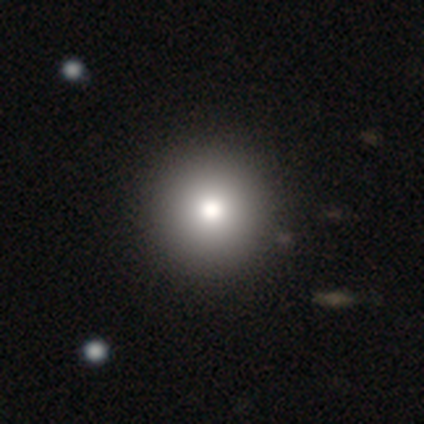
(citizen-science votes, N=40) Q: Smooth or featured?
A: smooth (90%); runner-up: featured or disk (10%)
Q: How rounded?
A: round (94%); runner-up: in between (6%)
Q: Merging?
A: none (65%); runner-up: minor disturbance (2%)